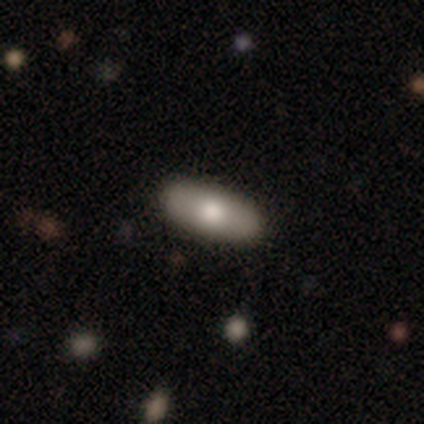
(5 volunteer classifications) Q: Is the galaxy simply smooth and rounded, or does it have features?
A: smooth — 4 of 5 (80%).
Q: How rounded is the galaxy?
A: in between — 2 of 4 (50%, tied with cigar-shaped).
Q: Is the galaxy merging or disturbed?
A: none — 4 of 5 (80%).